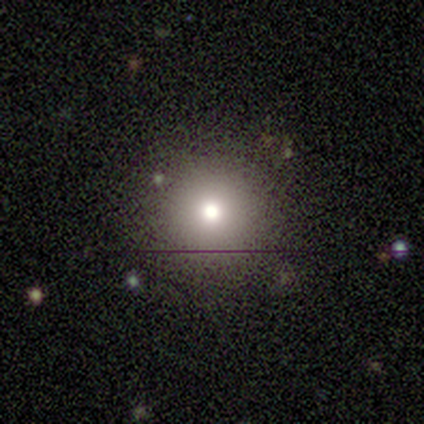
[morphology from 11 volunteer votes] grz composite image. It shows a smooth galaxy with no disk features (55%) that is round (100%). Merging: none (100%).